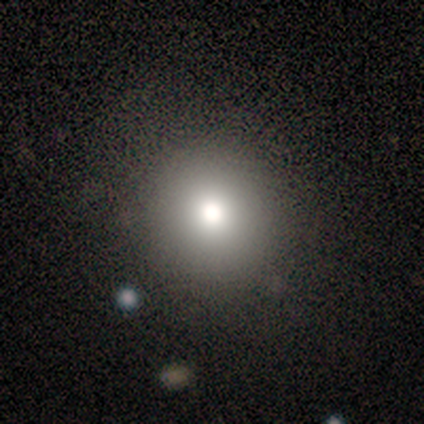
Smooth or featured? smooth (100%)
How rounded? round (75%)
Merging? none (75%)